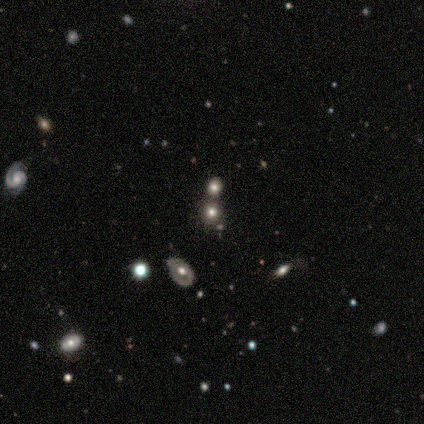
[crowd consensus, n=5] This is marginally a smooth galaxy (40%, tied with star or artifact). How rounded: possibly round (50%, tied with in between). Merging: likely merger (67%).